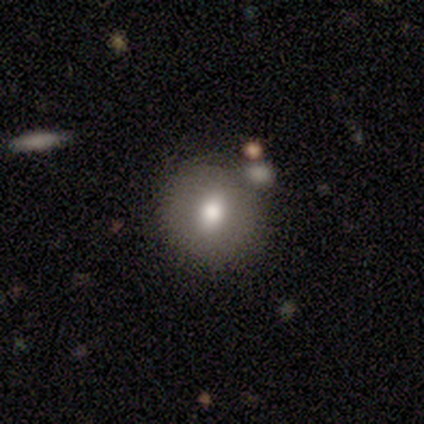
This is likely a smooth galaxy (60%). How rounded: clearly round (100%). Merging: clearly none (80%).